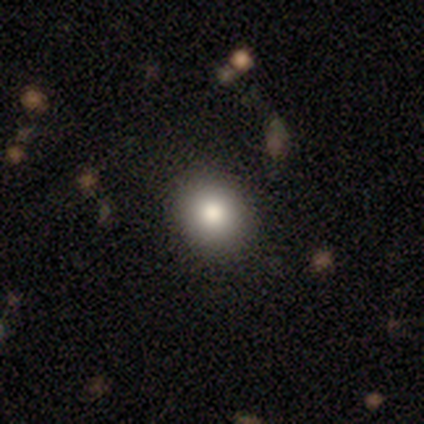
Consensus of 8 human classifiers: This appears to be a smooth galaxy with no disk features (88%) that is round (100%). Merging: none (100%).